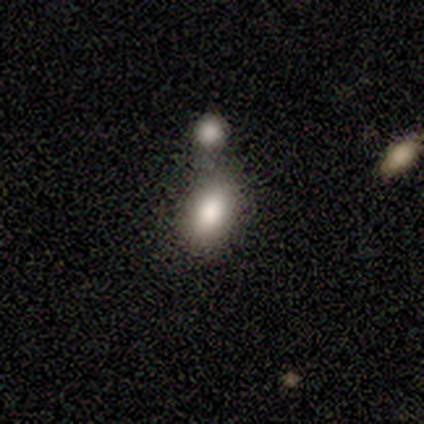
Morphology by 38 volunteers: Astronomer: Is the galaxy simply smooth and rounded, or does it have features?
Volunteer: smooth — 87%.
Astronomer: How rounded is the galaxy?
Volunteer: in between — 85%.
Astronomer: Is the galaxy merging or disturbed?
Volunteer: none — 51% (runner-up: merger, 34%).